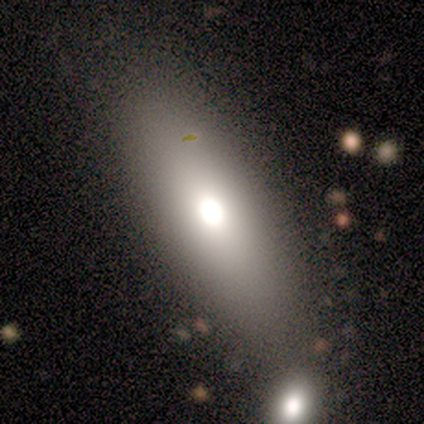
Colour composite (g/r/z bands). It shows a smooth galaxy with no disk features (60%) that is in between round and cigar-shaped (67%). Merging: none (80%).